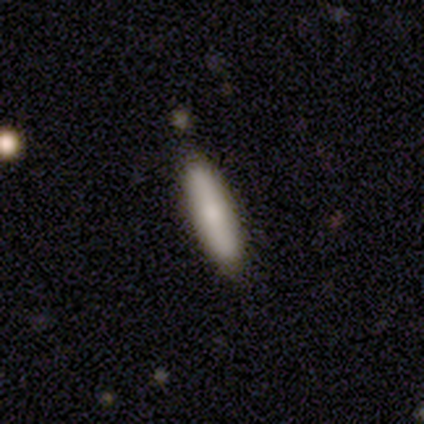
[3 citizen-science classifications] Overall: smooth (67%; featured or disk 33%). How rounded: cigar-shaped (100%). Merging: none (100%).